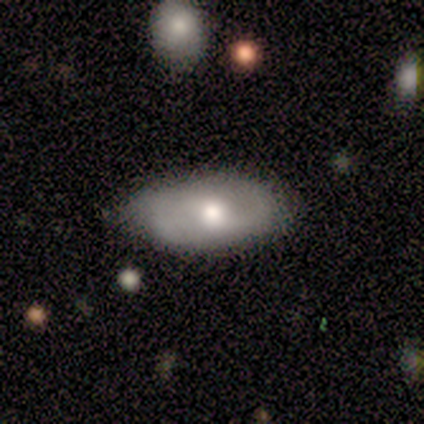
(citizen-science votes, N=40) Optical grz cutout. It shows a smooth galaxy with no disk features (52%) that is in between round and cigar-shaped (100%). Merging: none (72%).